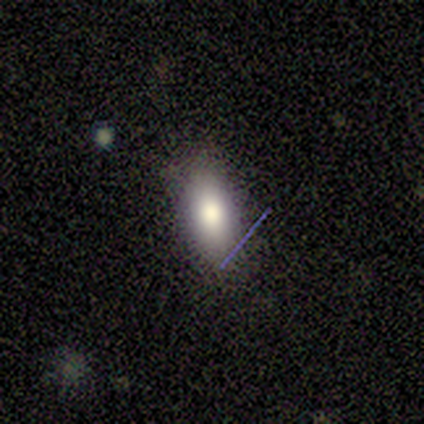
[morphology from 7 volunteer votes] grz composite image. It shows a smooth galaxy with no disk features (100%) that is in between round and cigar-shaped (100%). Merging: none (86%).